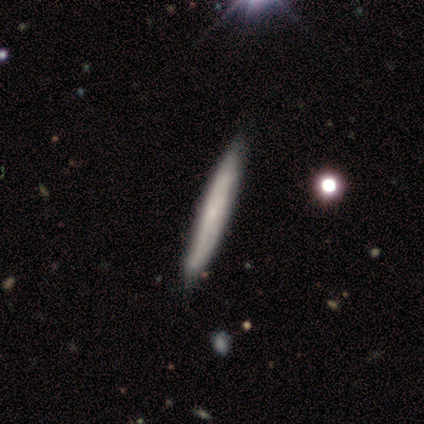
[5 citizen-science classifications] Volunteers were most divided on "spiral arms" (2-way tie): yes: 50%, no: 50%; "bulge size" (2-way tie): small: 50%, none: 50%, dominant: 0%, large: 0%, moderate: 0%. More confident: bar — no (100%); spiral winding — medium (100%); spiral arm count — can't tell (100%); merging — none (100%); edge-on disk — no (67%); smooth or featured — featured or disk (60%).